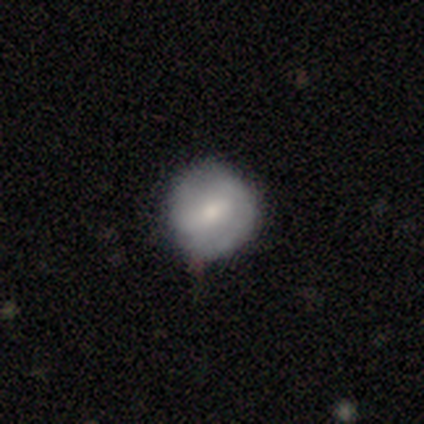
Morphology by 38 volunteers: Q: Smooth or featured?
A: smooth (55%); runner-up: featured or disk (45%)
Q: How rounded?
A: round (90%); runner-up: in between (10%)
Q: Merging?
A: none (79%); runner-up: minor disturbance (18%)